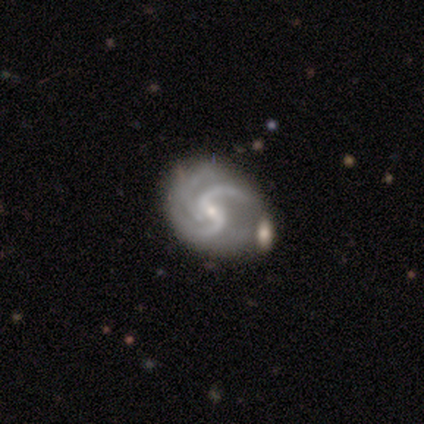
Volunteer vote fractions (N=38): This is clearly a featured or disk galaxy (97%). It is clearly not viewed edge-on (100%). Bar: likely weak (68%). Spiral arm pattern: clearly yes (100%). Spiral arm count: possibly 2 (49%). Spiral winding: marginally medium (38%). Central bulge: likely small (70%). Merging: possibly none (54%).